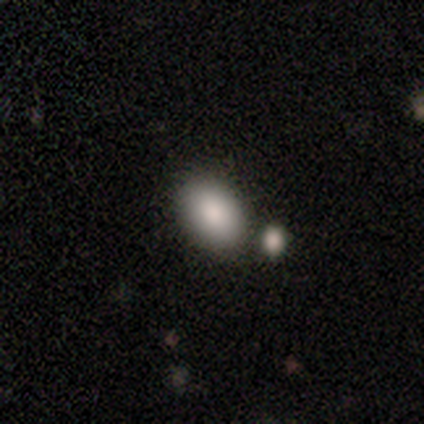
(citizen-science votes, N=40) This appears to be a smooth galaxy with no disk features (90%) that is in between round and cigar-shaped (78%). Merging: none (59%).